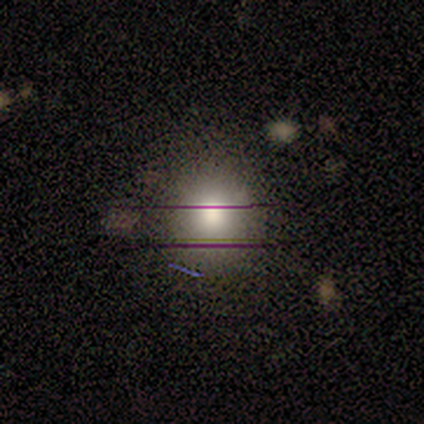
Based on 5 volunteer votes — A smooth galaxy with no disk features (60%) that is round (100%). Merging: none (100%).